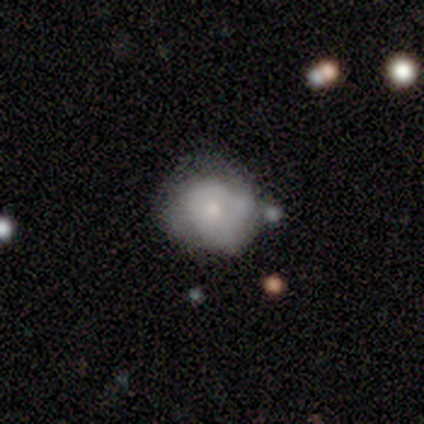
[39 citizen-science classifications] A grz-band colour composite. It shows a smooth galaxy with no disk features (67%) that is round (73%). Merging: minor disturbance (54%).